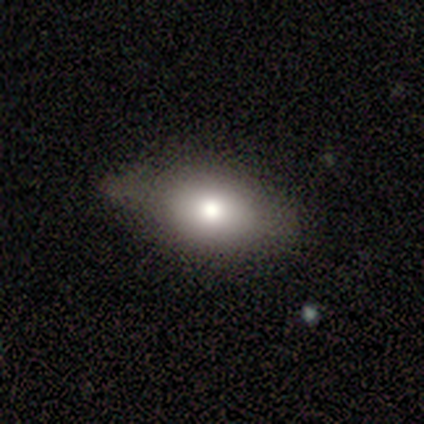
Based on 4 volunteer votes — Morphology: type=smooth (75%); roundness=in between (100%); merging=none (75%).